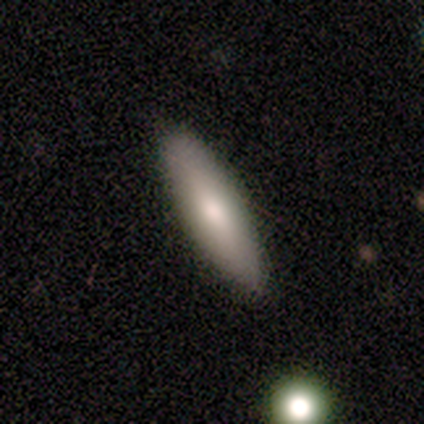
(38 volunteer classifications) This appears to be a smooth galaxy with no disk features (61%) that is cigar-shaped (52%). Merging: none (86%).